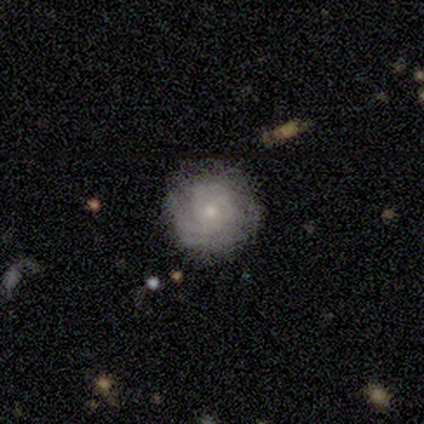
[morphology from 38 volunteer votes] smooth-or-featured: featured or disk: 63% | smooth: 32% | star or artifact: 5%
  disk-edge-on: no: 96% | yes: 4%
    bar: no: 87% | weak: 13% | strong: 0%
    has-spiral-arms: yes: 87% | no: 13%
      spiral-winding: tight: 70% | medium: 20% | loose: 10%
      spiral-arm-count: can't tell: 70% | 1: 15% | 3: 10% | 2: 5% | 4: 0% | more than 4: 0%
    bulge-size: small: 83% | moderate: 17% | dominant: 0% | large: 0% | none: 0%
  merging: none: 72% | minor disturbance: 17% | major disturbance: 8% | merger: 3%